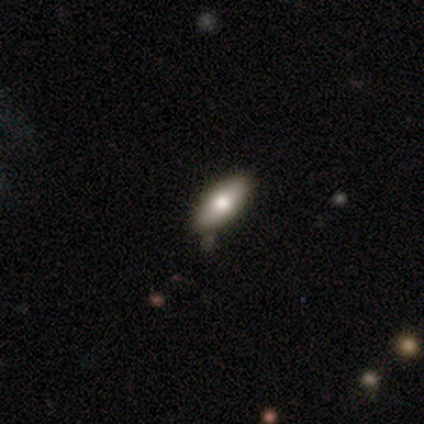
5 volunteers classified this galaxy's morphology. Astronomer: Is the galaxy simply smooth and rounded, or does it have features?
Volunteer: smooth — 100%.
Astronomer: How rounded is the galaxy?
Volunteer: in between — 60% (runner-up: cigar-shaped, 40%).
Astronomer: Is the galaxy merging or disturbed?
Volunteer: none — 80%.